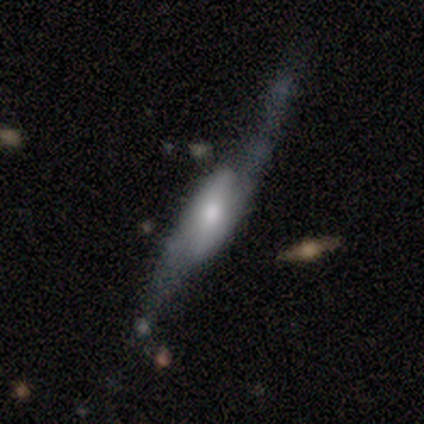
smooth_or_featured: featured or disk (p=1.00)
disk_edge_on: yes (p=0.60) [alt: no p=0.40]
edge_on_bulge: boxy (p=0.67) [alt: rounded p=0.33]
merging: minor disturbance (p=0.40) [alt: none p=0.20]